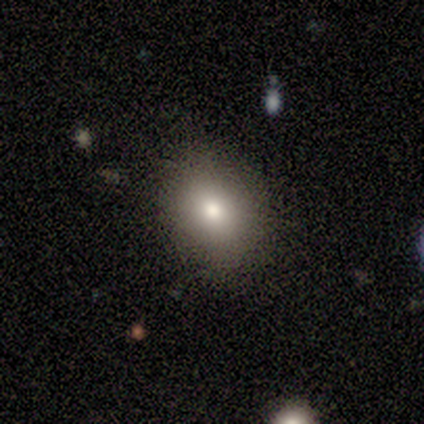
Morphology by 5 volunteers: Overall: smooth (80%). How rounded: in between (75%). Merging: none (100%).